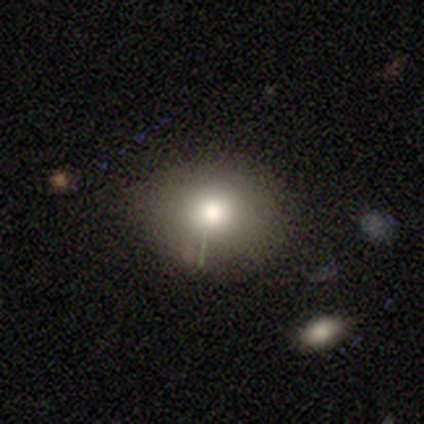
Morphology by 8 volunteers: type=smooth (75%); roundness=in between (67%); merging=none (75%).